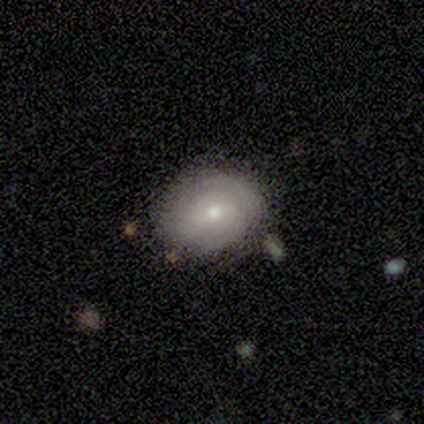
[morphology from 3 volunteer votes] This is likely a featured or disk galaxy (67%). It is clearly not viewed edge-on (100%). Bar: possibly strong (50%, tied with weak). Spiral arm pattern: clearly yes (100%). Spiral arm count: possibly 2 (50%, tied with can't tell). Spiral winding: possibly tight (50%, tied with medium). Central bulge: possibly dominant (50%, tied with small). Merging: marginally none (33%, tied with minor disturbance and major disturbance).